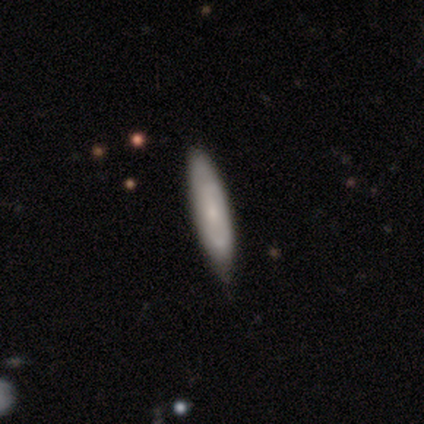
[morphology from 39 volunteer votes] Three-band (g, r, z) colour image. It shows a smooth galaxy with no disk features (49%, tied with featured or disk) that is cigar-shaped (79%). Merging: none (76%).